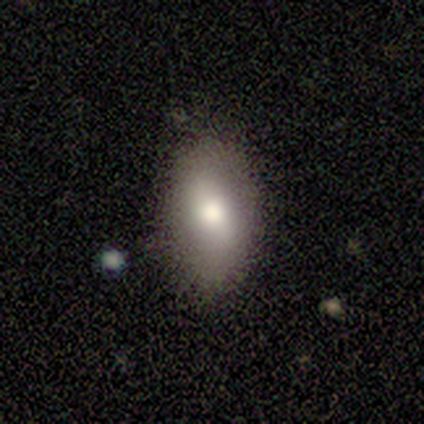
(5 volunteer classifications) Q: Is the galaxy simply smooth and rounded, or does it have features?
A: smooth — 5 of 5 (100%).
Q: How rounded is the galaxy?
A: in between — 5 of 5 (100%).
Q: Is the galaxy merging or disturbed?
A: none — 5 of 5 (100%).